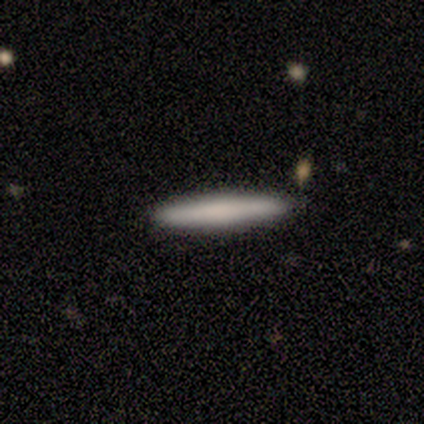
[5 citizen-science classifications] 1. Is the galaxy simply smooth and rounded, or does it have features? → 100% smooth, 0% featured or disk, 0% star or artifact.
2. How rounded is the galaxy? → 100% cigar-shaped, 0% round, 0% in between.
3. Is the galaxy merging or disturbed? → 100% none, 0% minor disturbance, 0% major disturbance, 0% merger.